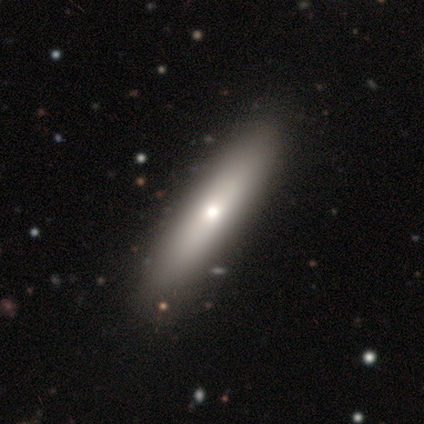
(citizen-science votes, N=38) Overall: smooth (68%; featured or disk 29%). How rounded: cigar-shaped (88%). Merging: none (76%).